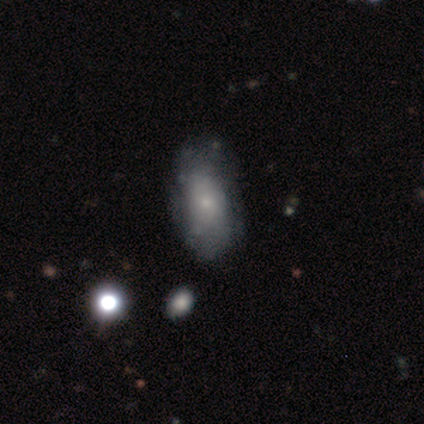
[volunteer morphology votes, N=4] smooth_or_featured: featured or disk (p=0.50) [alt: smooth p=0.25]
disk_edge_on: no (p=1.00)
bar: no (p=1.00)
has_spiral_arms: yes (p=0.50) [tied with: no p=0.50]
spiral_winding: tight (p=1.00)
spiral_arm_count: can't tell (p=1.00)
bulge_size: small (p=0.50) [tied with: none p=0.50]
merging: none (p=0.67) [alt: minor disturbance p=0.33]